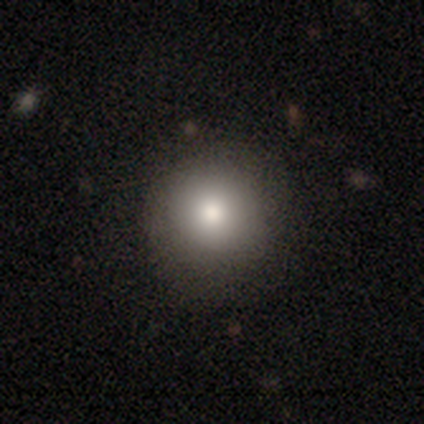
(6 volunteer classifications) Smooth or featured? 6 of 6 (100%) said smooth. How rounded? 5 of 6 (83%) said round. Merging? 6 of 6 (100%) said none.